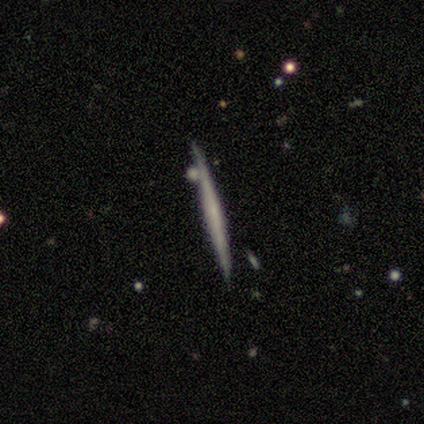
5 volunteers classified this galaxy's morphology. This is clearly a featured or disk galaxy (80%). It is clearly viewed edge-on (100%). Edge-on bulge: clearly none (100%). Merging: clearly none (80%).